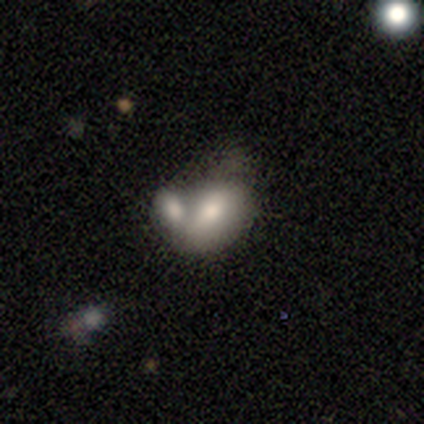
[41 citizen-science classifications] Smooth or featured? smooth (80%)
How rounded? in between (82%)
Merging? merger (71%)